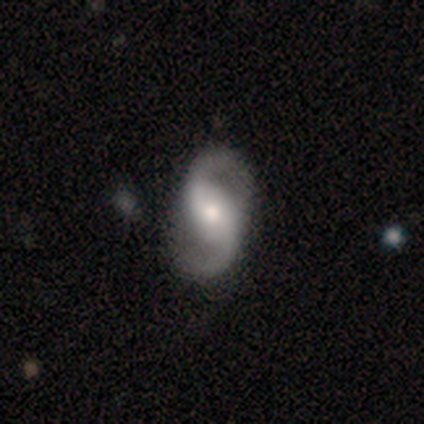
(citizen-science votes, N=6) This is clearly a featured or disk galaxy (83%). It is clearly not viewed edge-on (100%). Bar: marginally strong (40%, tied with weak). Spiral arm pattern: clearly yes (100%). Spiral arm count: clearly 2 (100%). Spiral winding: likely medium (60%). Central bulge: marginally moderate (40%, tied with small). Merging: clearly none (100%).